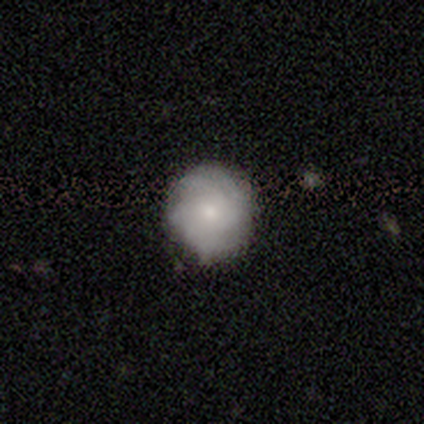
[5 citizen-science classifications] smooth_or_featured: smooth (p=0.60) [alt: featured or disk p=0.40]
how_rounded: round (p=1.00)
merging: none (p=0.80) [alt: minor disturbance p=0.20]